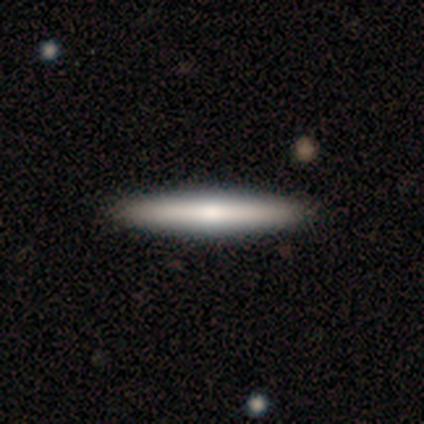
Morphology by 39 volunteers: type=smooth (51%); roundness=cigar-shaped (100%); merging=none (74%).